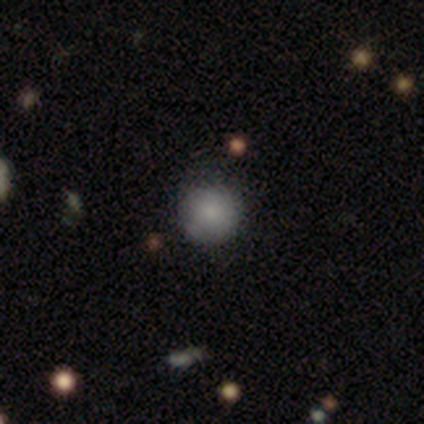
smooth-or-featured: smooth: 100% | featured or disk: 0% | star or artifact: 0%
  how-rounded: round: 100% | in between: 0% | cigar-shaped: 0%
  merging: none: 100% | minor disturbance: 0% | major disturbance: 0% | merger: 0%